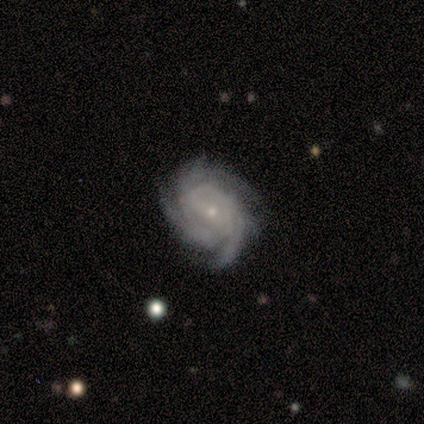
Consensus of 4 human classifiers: Smooth or featured? featured or disk (100%)
Edge-on disk? no (100%)
Bar? strong (75%)
Spiral arms? yes (100%)
Spiral winding? tight (75%)
Spiral arm count? 2 (25%, tied with 3, 4 and more than 4)
Bulge size? small (100%)
Merging? none (100%)